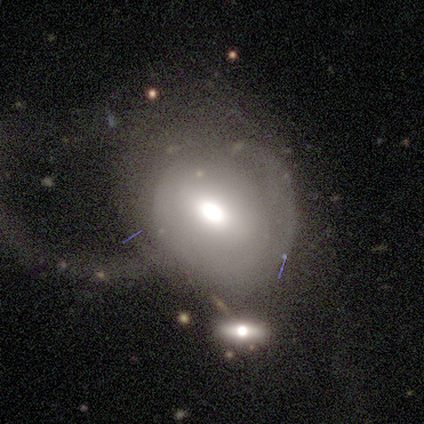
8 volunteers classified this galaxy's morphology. smooth-or-featured: smooth: 50% (tied) | featured or disk: 50% (tied) | star or artifact: 0%
  how-rounded: round: 50% (tied) | in between: 50% (tied) | cigar-shaped: 0%
  merging: major disturbance: 62% | merger: 25% | none: 12% | minor disturbance: 0%